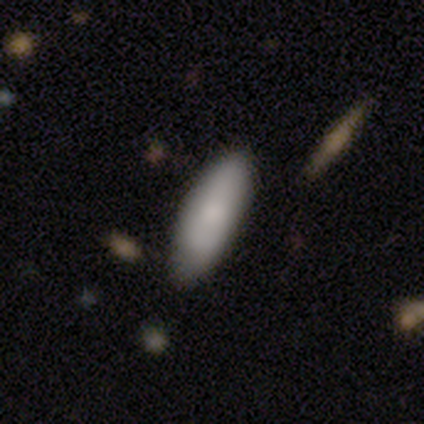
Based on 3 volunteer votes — A smooth galaxy with no disk features (100%) that is in between round and cigar-shaped (100%).

Vote fractions:
- Smooth or featured? smooth: 100% / featured or disk: 0% / star or artifact: 0%
- How rounded? in between: 100% / round: 0% / cigar-shaped: 0%
- Merging? none: 67% / minor disturbance: 33% / major disturbance: 0% / merger: 0%